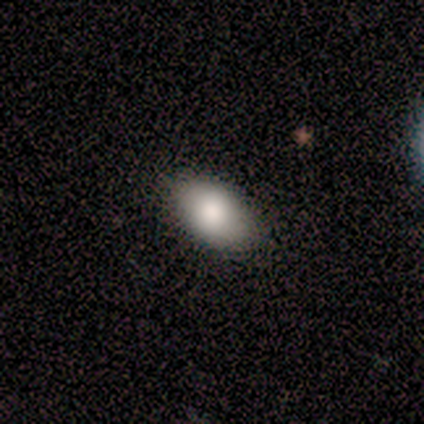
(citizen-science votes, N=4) Smooth or featured?
  - smooth: 100% *
  - featured or disk: 0%
  - star or artifact: 0%
How rounded?
  - in between: 100% *
  - round: 0%
  - cigar-shaped: 0%
Merging?
  - none: 100% *
  - minor disturbance: 0%
  - major disturbance: 0%
  - merger: 0%